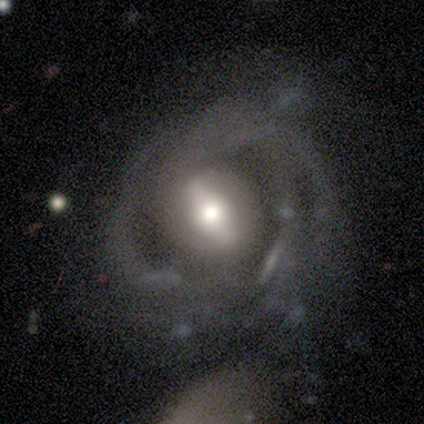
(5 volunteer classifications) Smooth or featured?
  - featured or disk: 100% *
  - smooth: 0%
  - star or artifact: 0%
Edge-on disk?
  - no: 100% *
  - yes: 0%
Bar?
  - strong: 60% *
  - weak: 20%
  - no: 20%
Spiral arms?
  - yes: 100% *
  - no: 0%
Spiral winding?
  - medium: 40% * (tied)
  - loose: 40% * (tied)
  - tight: 20%
Spiral arm count?
  - 2: 60% *
  - 3: 20%
  - can't tell: 20%
  - 1: 0%
  - 4: 0%
  - more than 4: 0%
Bulge size?
  - large: 80% *
  - moderate: 20%
  - dominant: 0%
  - small: 0%
  - none: 0%
Merging?
  - none: 60% *
  - minor disturbance: 20%
  - major disturbance: 20%
  - merger: 0%